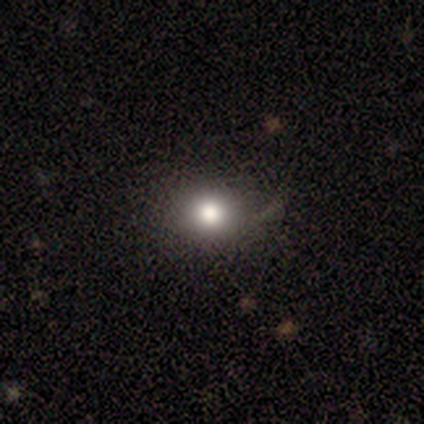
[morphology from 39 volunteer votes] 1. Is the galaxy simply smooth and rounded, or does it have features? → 72% smooth, 18% featured or disk, 10% star or artifact.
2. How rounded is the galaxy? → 93% round, 7% in between, 0% cigar-shaped.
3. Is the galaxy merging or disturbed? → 80% none, 14% minor disturbance, 6% major disturbance, 0% merger.